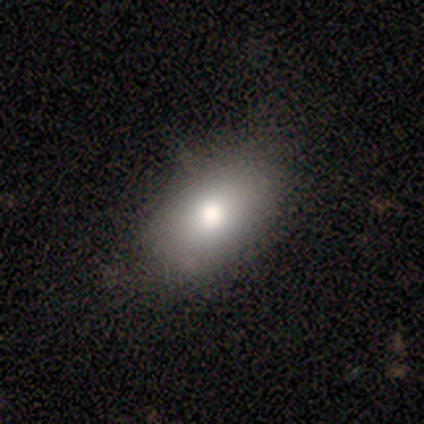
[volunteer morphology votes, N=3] smooth_or_featured: smooth (p=1.00)
how_rounded: in between (p=1.00)
merging: none (p=0.67) [alt: minor disturbance p=0.33]